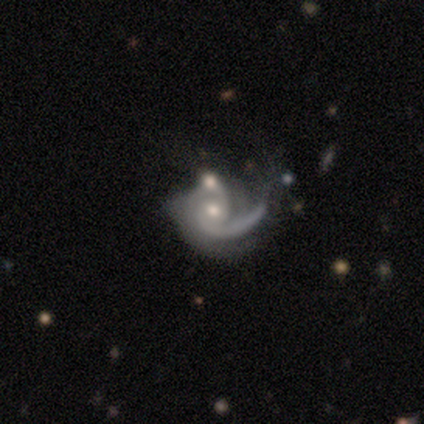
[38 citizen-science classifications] A featured or disk galaxy (87%) with no bar (79%), 1 (47%) medium (41%) spiral arms (97%) and a moderate central bulge (52%).

Vote fractions:
- Smooth or featured? featured or disk: 87% / smooth: 8% / star or artifact: 5%
- Edge-on disk? no: 100% / yes: 0%
- Bar? no: 79% / weak: 15% / strong: 6%
- Spiral arms? yes: 97% / no: 3%
- Spiral winding? medium: 41% / tight: 34% / loose: 25%
- Spiral arm count? 1: 47% / 2: 38% / can't tell: 12% / 3: 3% / 4: 0% / more than 4: 0%
- Bulge size? moderate: 52% / small: 42% / large: 6% / dominant: 0% / none: 0%
- Merging? merger: 44% / none: 22% / major disturbance: 22% / minor disturbance: 11%